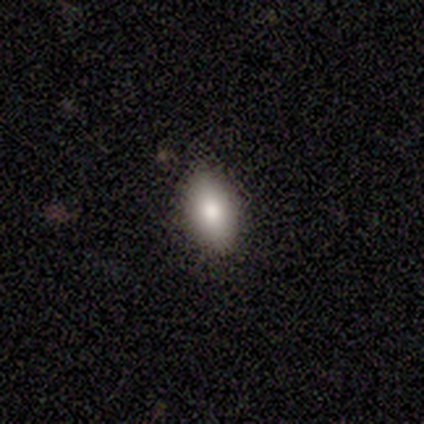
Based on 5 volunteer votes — Smooth or featured? smooth (100%)
How rounded? in between (80%)
Merging? none (100%)